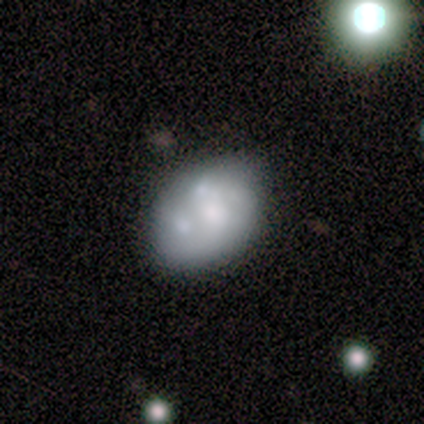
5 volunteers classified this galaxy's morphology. smooth-or-featured: featured or disk: 60% | smooth: 20% | star or artifact: 20%
  disk-edge-on: no: 100% | yes: 0%
    bar: no: 100% | strong: 0% | weak: 0%
    has-spiral-arms: no: 67% | yes: 33%
    bulge-size: large: 33% (tied) | moderate: 33% (tied) | small: 33% (tied) | dominant: 0% | none: 0%
  merging: none: 50% (tied) | merger: 50% (tied) | minor disturbance: 0% | major disturbance: 0%